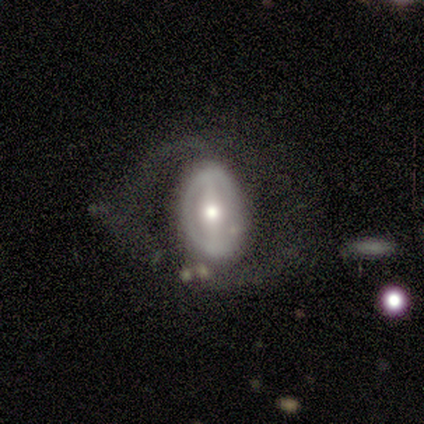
Overall: featured or disk (80%). Edge-on disk: no (100%). Bar: strong (100%). Spiral arms: yes (75%). Spiral arm count: 2 (67%; 1 33%). Spiral winding: medium (67%; tight 33%). Bulge size: moderate (75%). Merging: none (80%).